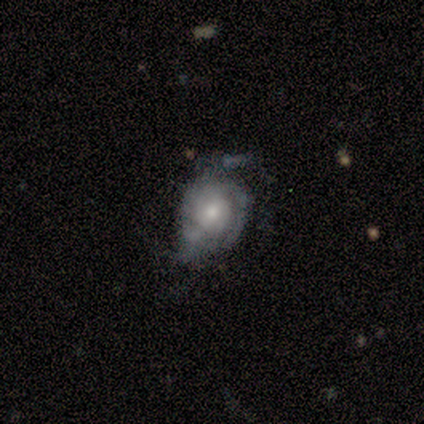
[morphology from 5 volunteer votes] type=featured or disk (80%); edge-on=no (100%); bar=no (75%); spiral arms=yes (100%); winding=tight (50%); arm count=3 (50%); bulge=moderate (50%, tied with small); merging=none (80%).